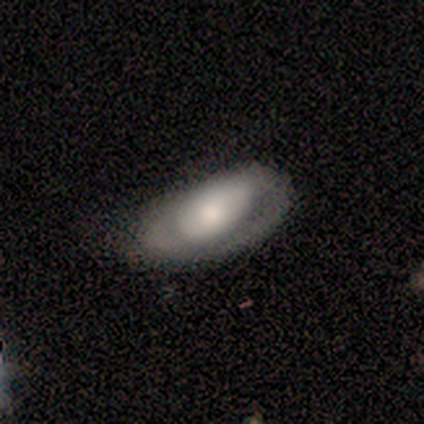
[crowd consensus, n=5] Overall: smooth (60%; featured or disk 40%). How rounded: in between (100%). Merging: none (60%; minor disturbance 20%).